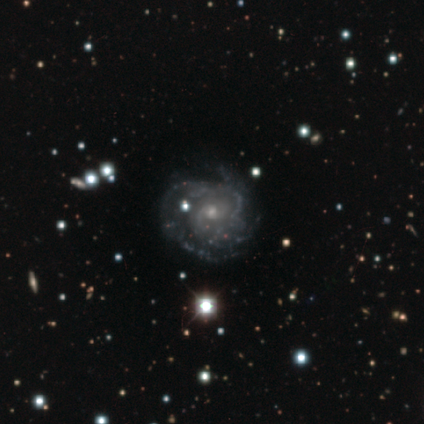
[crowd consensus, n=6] smooth_or_featured: featured or disk (p=1.00)
disk_edge_on: no (p=1.00)
bar: no (p=0.67) [alt: weak p=0.33]
has_spiral_arms: yes (p=0.83) [alt: no p=0.17]
spiral_winding: tight (p=0.60) [alt: medium p=0.40]
spiral_arm_count: can't tell (p=0.80) [alt: 3 p=0.20]
bulge_size: small (p=0.67) [alt: moderate p=0.33]
merging: none (p=0.50) [alt: minor disturbance p=0.33]